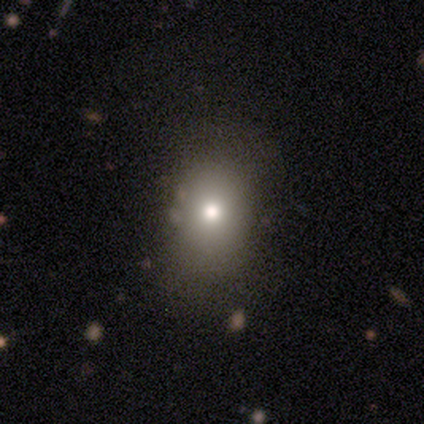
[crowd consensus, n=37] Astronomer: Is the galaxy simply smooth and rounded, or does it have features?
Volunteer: smooth — 76%.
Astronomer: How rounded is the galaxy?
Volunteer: in between — 57% (runner-up: round, 43%).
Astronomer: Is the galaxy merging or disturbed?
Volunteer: none — 88%.